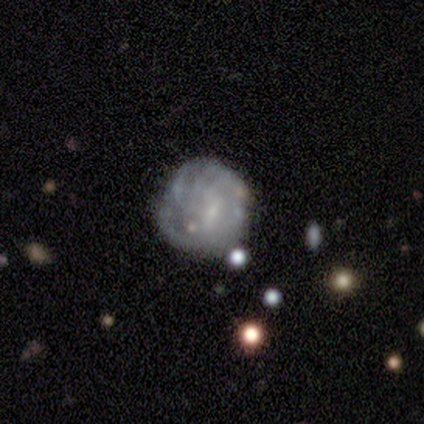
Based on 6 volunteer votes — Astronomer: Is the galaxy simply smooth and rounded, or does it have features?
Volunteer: featured or disk — 67%.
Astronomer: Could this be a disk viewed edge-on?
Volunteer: no — 100%.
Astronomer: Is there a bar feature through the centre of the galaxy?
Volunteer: weak — 50%, tied with no at 50%.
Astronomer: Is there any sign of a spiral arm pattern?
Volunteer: yes — 75%.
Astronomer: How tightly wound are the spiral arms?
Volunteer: medium — 67%.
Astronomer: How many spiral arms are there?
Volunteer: can't tell — 67%.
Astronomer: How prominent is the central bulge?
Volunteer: small — 50%.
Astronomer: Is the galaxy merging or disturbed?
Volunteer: none — 40%, tied with minor disturbance at 40%.